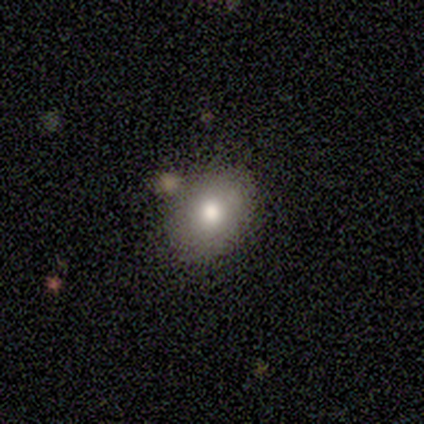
This appears to be a smooth galaxy with no disk features (80%) that is round (50%, tied with in between). Merging: none (50%).